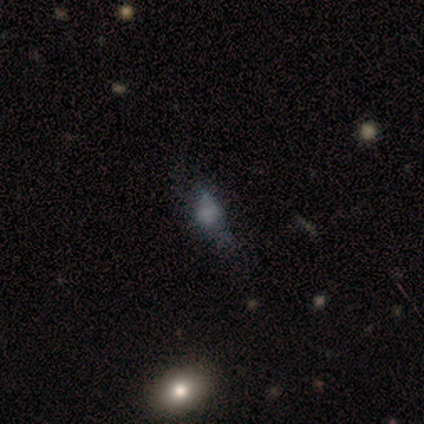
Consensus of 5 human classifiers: Smooth or featured? smooth (40%, tied with featured or disk)
How rounded? in between (100%)
Merging? none (50%, tied with major disturbance)